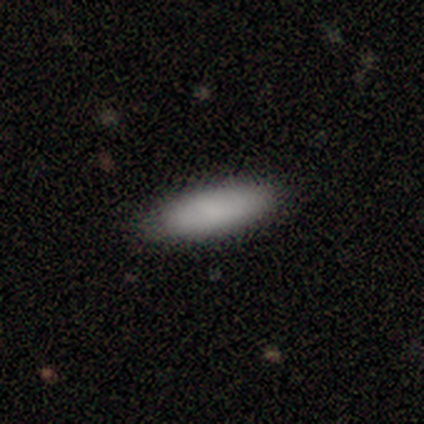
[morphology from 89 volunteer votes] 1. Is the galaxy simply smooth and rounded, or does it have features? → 93% smooth, 3% featured or disk, 3% star or artifact.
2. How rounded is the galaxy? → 52% in between, 48% cigar-shaped, 0% round.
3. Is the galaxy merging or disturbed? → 86% none, 9% minor disturbance, 5% major disturbance, 0% merger.